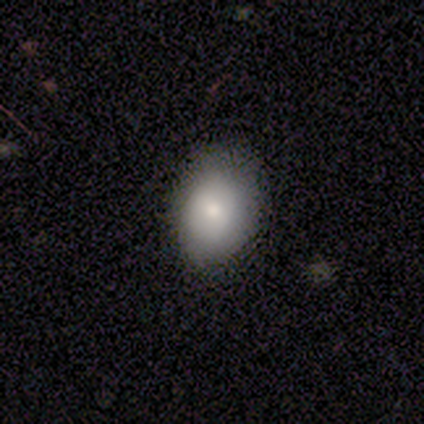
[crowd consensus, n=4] Q: Smooth or featured?
A: smooth (50%); runner-up: featured or disk (25%)
Q: How rounded?
A: in between (100%)
Q: Merging?
A: none (67%); runner-up: minor disturbance (33%)